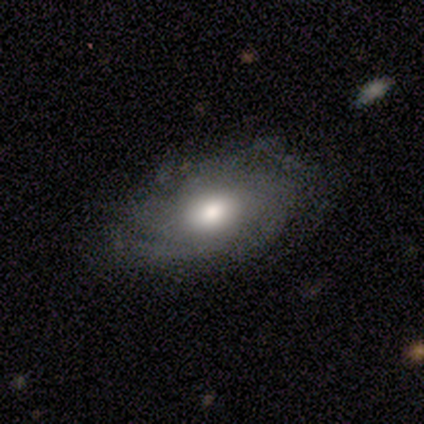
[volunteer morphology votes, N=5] Smooth or featured? 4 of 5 (80%) said smooth. How rounded? 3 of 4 (75%) said in between. Merging? 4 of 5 (80%) said none.